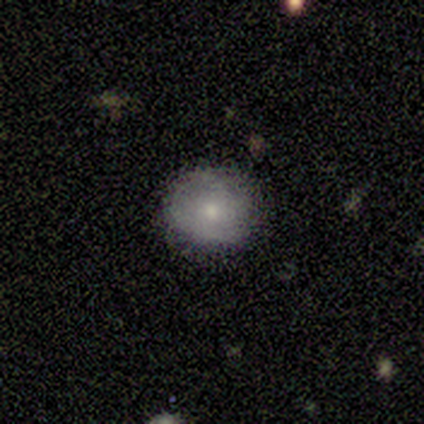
A smooth galaxy with no disk features (80%) that is round (100%). Merging: none (100%).